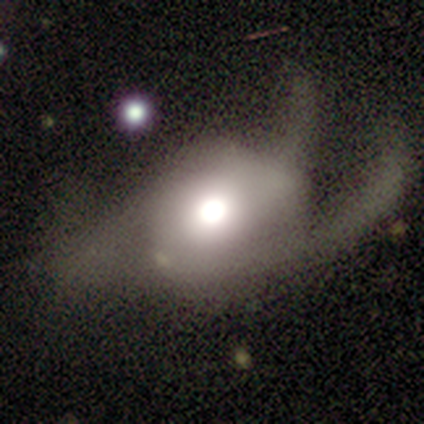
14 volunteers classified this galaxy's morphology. featured or disk 50%, smooth 43%, star or artifact 7%. Down the decision tree: edge-on disk — no (100%); bar — no (100%); spiral arms — yes (71%); spiral arm count — can't tell (60%); spiral winding — loose (60%); bulge size — moderate (57%); merging — major disturbance (38%).